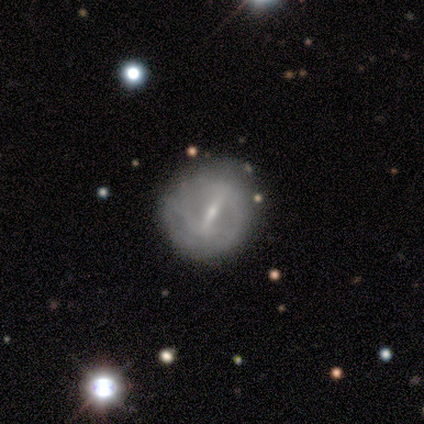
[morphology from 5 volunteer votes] Overall: featured or disk (80%). Edge-on disk: no (100%). Bar: strong (100%). Spiral arms: yes (50%, tied with no). Spiral arm count: 2 (100%). Spiral winding: tight (50%, tied with loose). Bulge size: small (75%). Merging: none (80%).